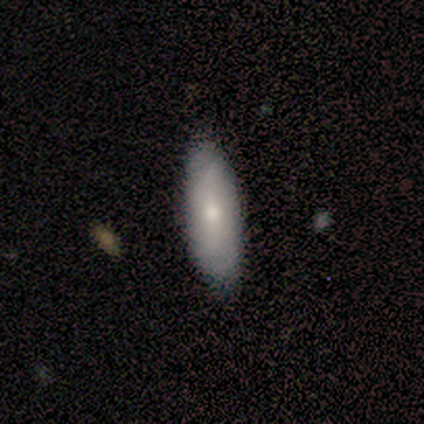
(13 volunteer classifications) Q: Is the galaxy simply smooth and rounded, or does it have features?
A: smooth — 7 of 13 (54%).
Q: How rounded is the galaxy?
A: in between — 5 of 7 (71%).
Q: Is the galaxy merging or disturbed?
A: none — 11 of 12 (92%).